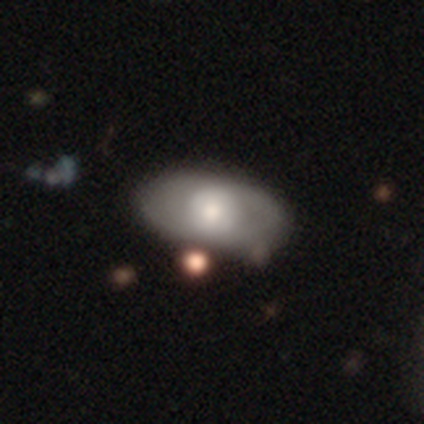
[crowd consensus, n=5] smooth_or_featured: smooth (p=0.60) [alt: featured or disk p=0.40]
how_rounded: in between (p=1.00)
merging: none (p=1.00)